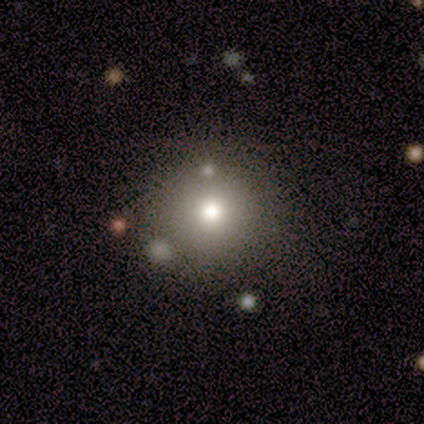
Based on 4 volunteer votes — Smooth or featured? featured or disk (50%)
Edge-on disk? no (100%)
Bar? no (100%)
Spiral arms? no (100%)
Bulge size? moderate (100%)
Merging? none (100%)